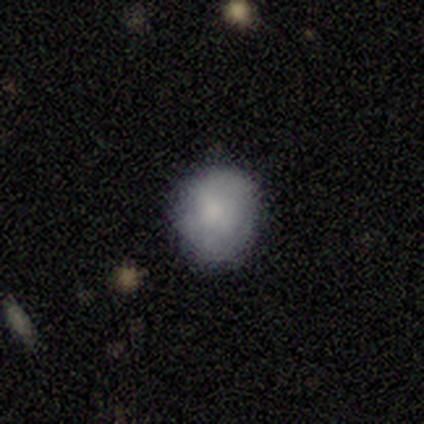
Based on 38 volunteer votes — This is likely a smooth galaxy (71%). How rounded: likely round (63%). Merging: clearly none (82%).